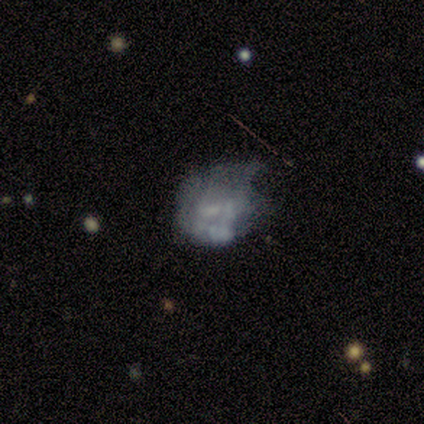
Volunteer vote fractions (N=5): A featured or disk galaxy (60%) with a weak bar (67%), no spiral arms (67%) and no central bulge (100%). Merging: minor disturbance (40%, tied with major disturbance).